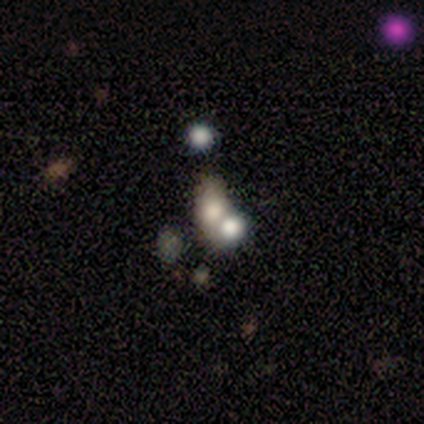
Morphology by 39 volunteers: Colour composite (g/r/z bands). It shows a featured or disk galaxy (41%) with no bar (93%), no spiral arms (93%) and a large central bulge (40%). Merging: merger (55%).